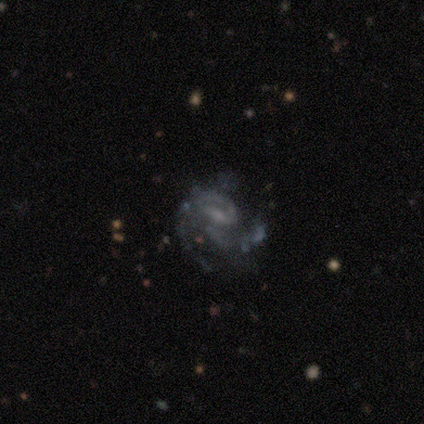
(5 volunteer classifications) Overall: featured or disk (60%; star or artifact 40%). Edge-on disk: no (100%). Bar: weak (67%; no 33%). Spiral arms: yes (100%). Spiral arm count: 1 (67%; can't tell 33%). Spiral winding: loose (100%). Bulge size: none (67%; small 33%). Merging: none (67%; major disturbance 33%).